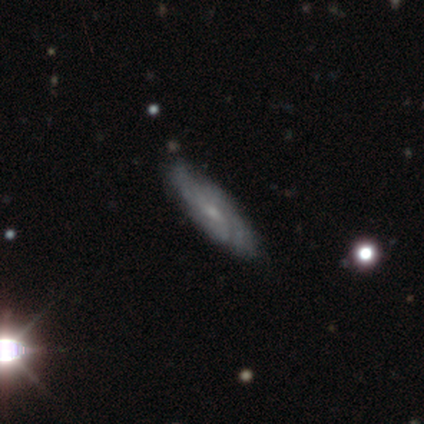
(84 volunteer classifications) Overall: featured or disk (68%). Edge-on disk: no (77%). Bar: no (66%; weak 27%). Spiral arms: yes (86%). Spiral arm count: can't tell (61%). Spiral winding: tight (58%; medium 34%). Bulge size: small (70%). Merging: none (83%).